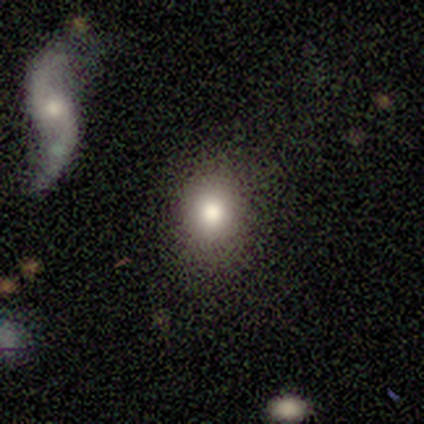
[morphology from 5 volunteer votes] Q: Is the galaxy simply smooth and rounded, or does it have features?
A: smooth — 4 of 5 (80%).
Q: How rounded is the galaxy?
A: round — 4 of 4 (100%).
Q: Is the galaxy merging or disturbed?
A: none — 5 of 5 (100%).